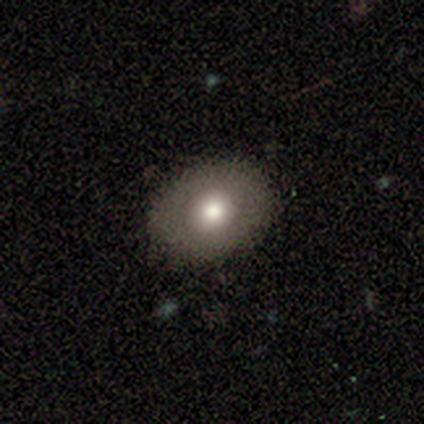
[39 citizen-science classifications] smooth-or-featured: smooth: 69% | featured or disk: 18% | star or artifact: 13%
  how-rounded: in between: 67% | round: 33% | cigar-shaped: 0%
  merging: none: 65% | minor disturbance: 12% | major disturbance: 0% | merger: 0%